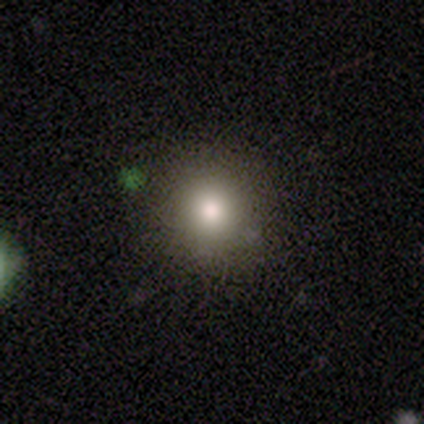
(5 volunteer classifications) Morphology: type=smooth (100%); roundness=round (100%); merging=none (100%).